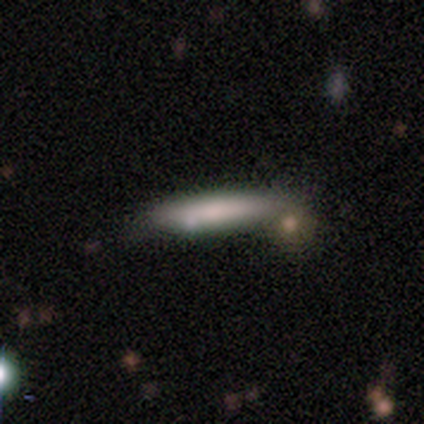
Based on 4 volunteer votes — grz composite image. It shows a smooth galaxy with no disk features (75%) that is cigar-shaped (67%). Merging: none (75%).